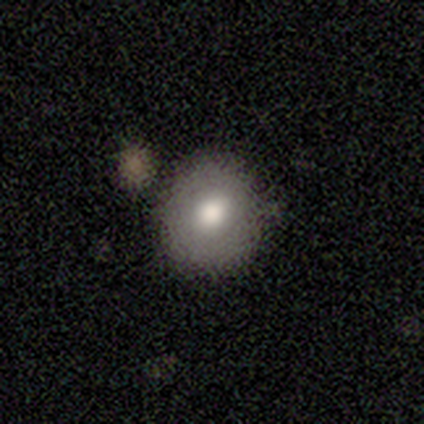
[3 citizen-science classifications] Smooth or featured? smooth (100%)
How rounded? round (67%)
Merging? none (67%)